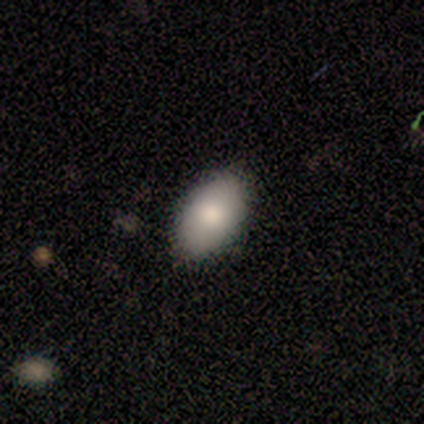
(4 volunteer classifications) smooth 100%, featured or disk 0%, star or artifact 0%. Down the decision tree: how rounded — in between (100%); merging — none (75%).